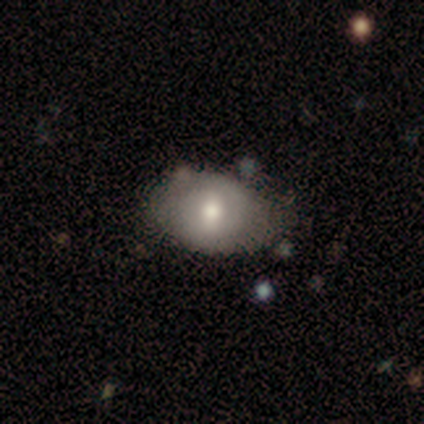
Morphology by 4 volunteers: Smooth or featured?
  - smooth: 50% * (tied)
  - featured or disk: 50% * (tied)
  - star or artifact: 0%
How rounded?
  - in between: 100% *
  - round: 0%
  - cigar-shaped: 0%
Merging?
  - none: 100% *
  - minor disturbance: 0%
  - major disturbance: 0%
  - merger: 0%